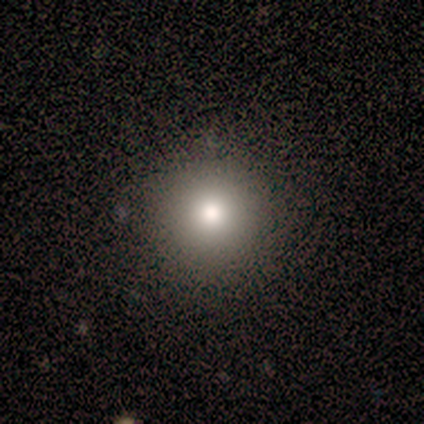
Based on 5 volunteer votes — smooth_or_featured: smooth (p=0.40) [tied with: star or artifact p=0.40]
how_rounded: round (p=1.00)
merging: none (p=1.00)